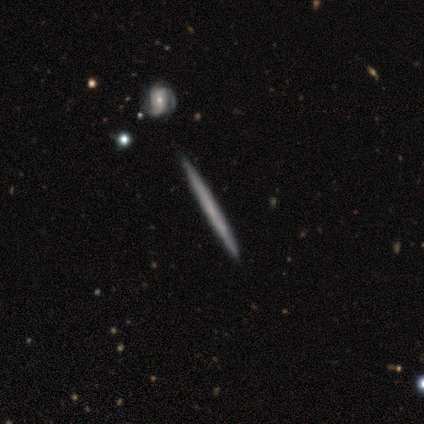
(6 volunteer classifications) Smooth or featured? featured or disk (67%)
Edge-on disk? yes (100%)
Edge-on bulge? none (100%)
Merging? none (100%)